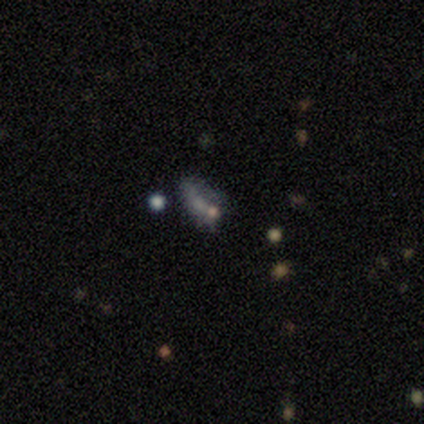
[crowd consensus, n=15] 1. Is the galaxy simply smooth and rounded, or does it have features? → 47% smooth, 33% featured or disk, 20% star or artifact.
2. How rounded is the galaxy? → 86% in between, 14% cigar-shaped, 0% round.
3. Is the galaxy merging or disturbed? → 42% none, 33% minor disturbance, 17% major disturbance, 8% merger.